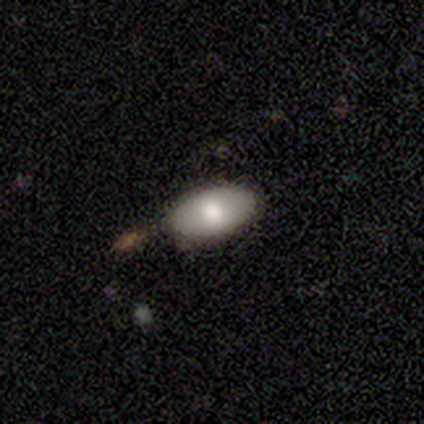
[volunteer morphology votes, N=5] Smooth or featured? 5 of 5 (100%) said smooth. How rounded? 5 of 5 (100%) said in between. Merging? 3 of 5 (60%) said none.